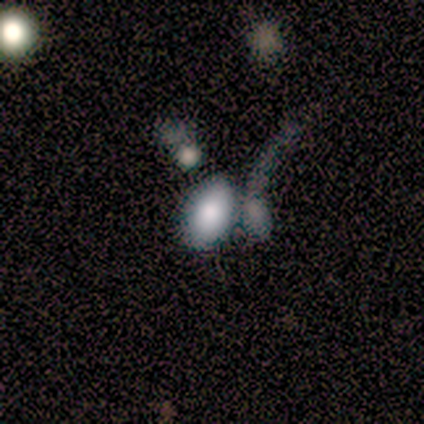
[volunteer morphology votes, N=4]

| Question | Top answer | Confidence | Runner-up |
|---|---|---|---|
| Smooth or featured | smooth | 50% | tied: featured or disk (50%) |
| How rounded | in between | 100% | — |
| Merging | merger | 100% | — |